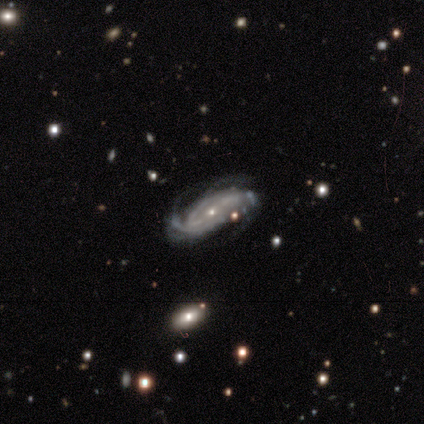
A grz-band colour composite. It shows a featured or disk galaxy (100%) with a weak bar (50%), medium (75%) spiral arms (100%) and a small central bulge (75%). Merging: none (40%, tied with minor disturbance).